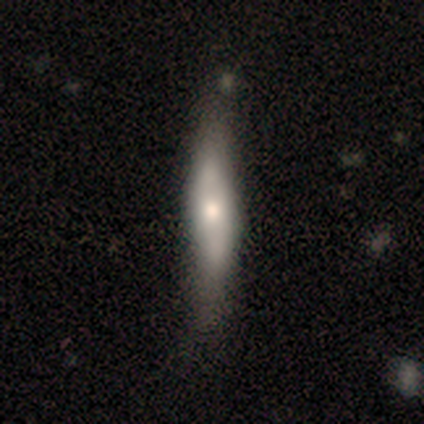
Smooth or featured? 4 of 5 (80%) said smooth. How rounded? 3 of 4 (75%) said cigar-shaped. Merging? 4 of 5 (80%) said none.